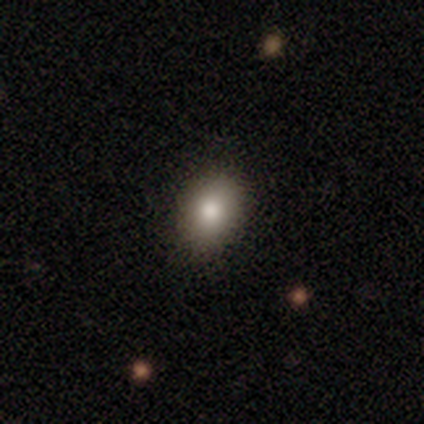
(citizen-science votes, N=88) Smooth or featured: smooth — 81% (featured or disk — 10%)
How rounded: in between — 68% (round — 32%)
Merging: none — 91% (minor disturbance — 8%)